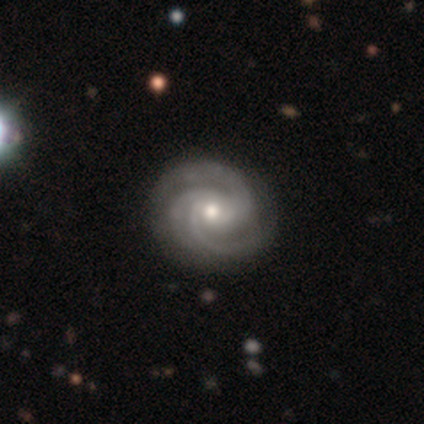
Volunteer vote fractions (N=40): This appears to be a featured or disk galaxy (88%) with no bar (60%), 3 (76%) tight (68%) spiral arms (97%) and a moderate central bulge (54%). Merging: none (92%).